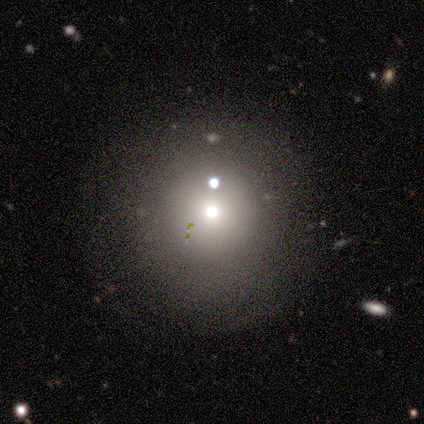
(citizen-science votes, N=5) smooth_or_featured: smooth (p=0.40) [tied with: star or artifact p=0.40]
how_rounded: round (p=1.00)
merging: none (p=1.00)